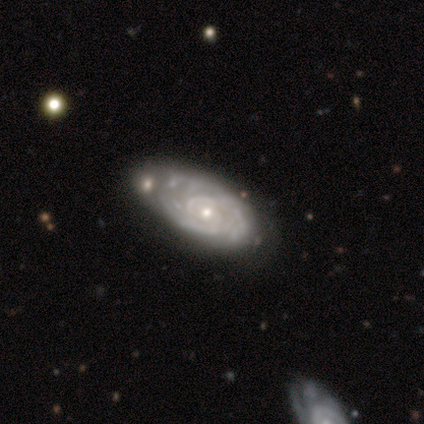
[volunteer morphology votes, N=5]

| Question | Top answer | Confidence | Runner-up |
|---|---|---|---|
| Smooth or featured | featured or disk | 60% | smooth (20%) |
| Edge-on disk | no | 100% | — |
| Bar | no | 100% | — |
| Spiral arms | yes | 100% | — |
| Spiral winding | tight | 67% | medium (33%) |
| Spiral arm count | can't tell | 100% | — |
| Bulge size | small | 67% | moderate (33%) |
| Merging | minor disturbance | 50% | none (25%) |